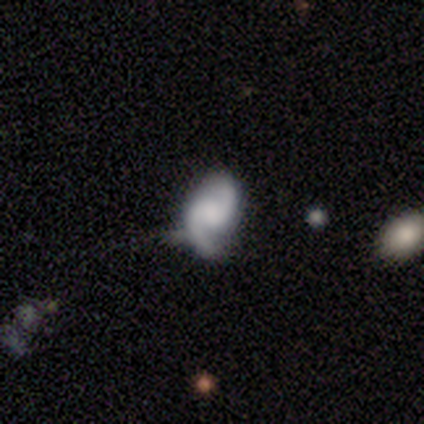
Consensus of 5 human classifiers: featured or disk 100%, smooth 0%, star or artifact 0%. Down the decision tree: edge-on disk — no (100%); bar — no (80%); spiral arms — yes (100%); spiral arm count — 2 (100%); spiral winding — medium (60%); bulge size — none (60%); merging — none (60%).